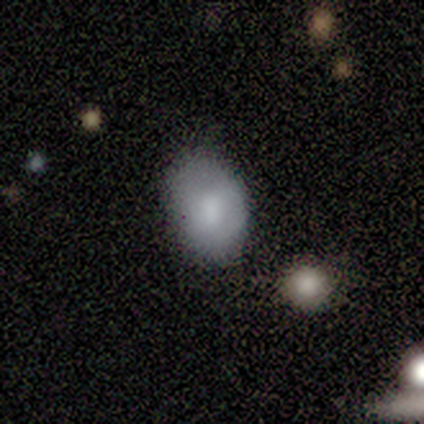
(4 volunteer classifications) This appears to be a smooth galaxy with no disk features (75%) that is in between round and cigar-shaped (67%). Merging: none (100%).